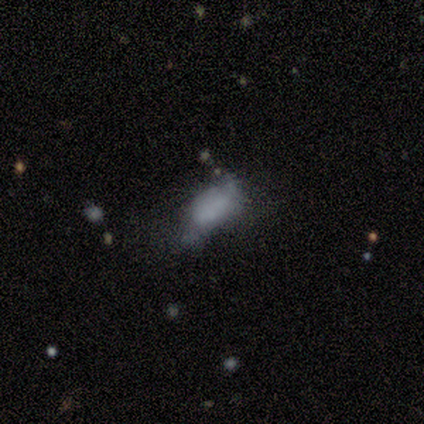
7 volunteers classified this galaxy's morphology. A smooth galaxy with no disk features (57%) that is round (50%, tied with in between). Merging: minor disturbance (67%).